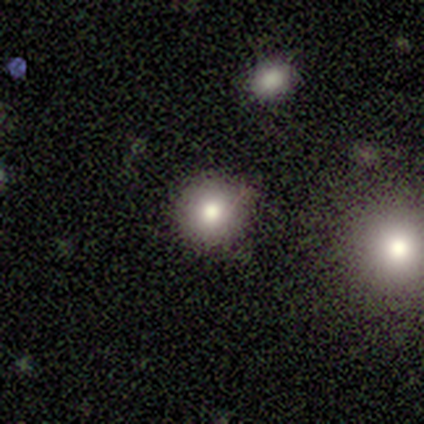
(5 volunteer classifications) A smooth galaxy with no disk features (80%) that is round (75%).

Vote fractions:
- Smooth or featured? smooth: 80% / star or artifact: 20% / featured or disk: 0%
- How rounded? round: 75% / in between: 25% / cigar-shaped: 0%
- Merging? none: 75% / minor disturbance: 25% / major disturbance: 0% / merger: 0%